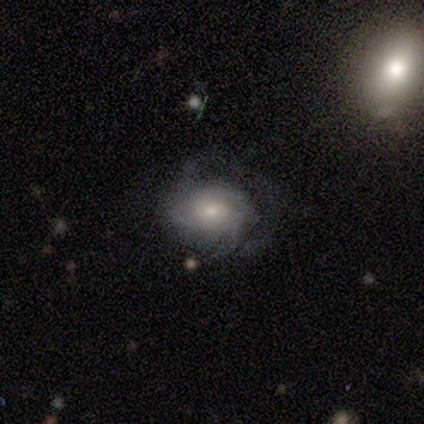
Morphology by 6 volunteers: A featured or disk galaxy (67%) with a weak bar (75%), tight (50%, tied with medium) spiral arms (100%) and a large central bulge (50%, tied with moderate).

Vote fractions:
- Smooth or featured? featured or disk: 67% / smooth: 17% / star or artifact: 17%
- Edge-on disk? no: 100% / yes: 0%
- Bar? weak: 75% / no: 25% / strong: 0%
- Spiral arms? yes: 100% / no: 0%
- Spiral winding? tight: 50% (tied) / medium: 50% (tied) / loose: 0%
- Spiral arm count? can't tell: 100% / 1: 0% / 2: 0% / 3: 0% / 4: 0% / more than 4: 0%
- Bulge size? large: 50% (tied) / moderate: 50% (tied) / dominant: 0% / small: 0% / none: 0%
- Merging? none: 40% (tied) / minor disturbance: 40% (tied) / major disturbance: 20% / merger: 0%